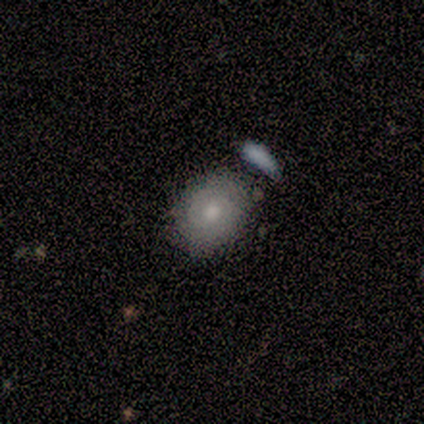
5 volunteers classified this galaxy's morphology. Smooth or featured: featured or disk — 80% (smooth — 20%)
Edge-on disk: no — 100%
Bar: no — 75% (weak — 25%)
Spiral arms: yes — 50% (tied with no — 50%)
Spiral winding: tight — 100%
Spiral arm count: 2 — 50% (tied with can't tell — 50%)
Bulge size: moderate — 75% (small — 25%)
Merging: minor disturbance — 60% (none — 40%)